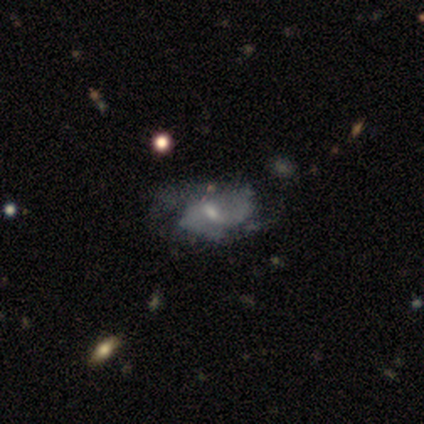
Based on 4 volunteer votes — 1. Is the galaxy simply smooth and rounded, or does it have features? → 100% featured or disk, 0% smooth, 0% star or artifact.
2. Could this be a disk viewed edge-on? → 100% no, 0% yes.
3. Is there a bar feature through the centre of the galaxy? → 75% no, 25% weak, 0% strong.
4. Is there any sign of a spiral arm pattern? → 75% yes, 25% no.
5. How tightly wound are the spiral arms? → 67% loose, 33% tight, 0% medium.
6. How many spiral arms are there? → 67% can't tell, 33% 2, 0% 1, 0% 3, 0% 4, 0% more than 4.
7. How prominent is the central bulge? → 75% small, 25% none, 0% dominant, 0% large, 0% moderate.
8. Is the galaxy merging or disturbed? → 25% none (tied), 25% minor disturbance (tied), 25% major disturbance (tied), 25% merger (tied).